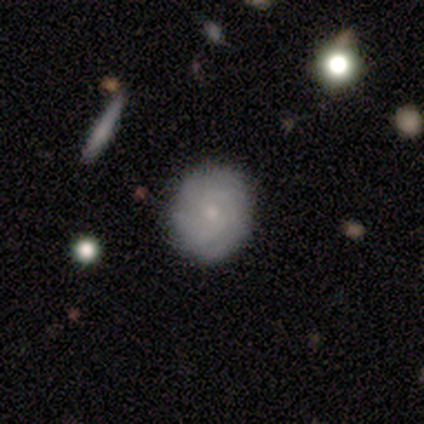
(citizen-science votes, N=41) Smooth or featured? 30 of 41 (73%) said featured or disk. Edge-on disk? 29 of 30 (97%) said no. Bar? 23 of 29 (79%) said no. Spiral arms? 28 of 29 (97%) said yes. Spiral winding? 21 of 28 (75%) said tight. Spiral arm count? 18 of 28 (64%) said can't tell. Bulge size? 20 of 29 (69%) said small. Merging? 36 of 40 (90%) said none.